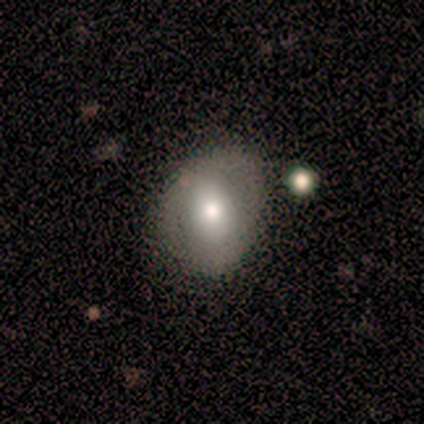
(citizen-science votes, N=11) A smooth galaxy with no disk features (55%) that is in between round and cigar-shaped (100%).

Vote fractions:
- Smooth or featured? smooth: 55% / featured or disk: 36% / star or artifact: 9%
- How rounded? in between: 100% / round: 0% / cigar-shaped: 0%
- Merging? none: 60% / minor disturbance: 30% / merger: 10% / major disturbance: 0%